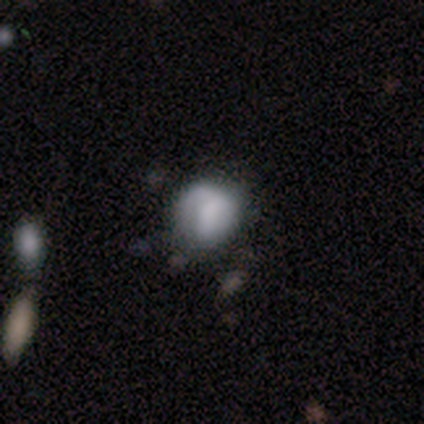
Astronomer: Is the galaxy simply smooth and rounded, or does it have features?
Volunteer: smooth — 73%.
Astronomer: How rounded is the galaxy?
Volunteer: round — 85%.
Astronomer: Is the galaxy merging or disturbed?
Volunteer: none — 53% (runner-up: minor disturbance, 31%).